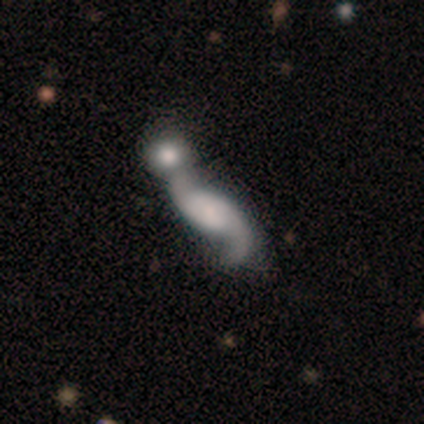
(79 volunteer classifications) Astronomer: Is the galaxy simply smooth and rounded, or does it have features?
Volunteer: featured or disk — 78%.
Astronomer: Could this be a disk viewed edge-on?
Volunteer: no — 95%.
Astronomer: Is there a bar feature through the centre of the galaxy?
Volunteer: no — 66%.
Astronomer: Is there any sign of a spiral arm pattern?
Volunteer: yes — 92%.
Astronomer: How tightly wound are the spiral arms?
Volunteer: loose — 87%.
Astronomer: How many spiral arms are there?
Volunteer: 2 — 93%.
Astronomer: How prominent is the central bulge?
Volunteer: small — 31% (runner-up: none, 27%).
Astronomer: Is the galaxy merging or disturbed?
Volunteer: merger — 41%.